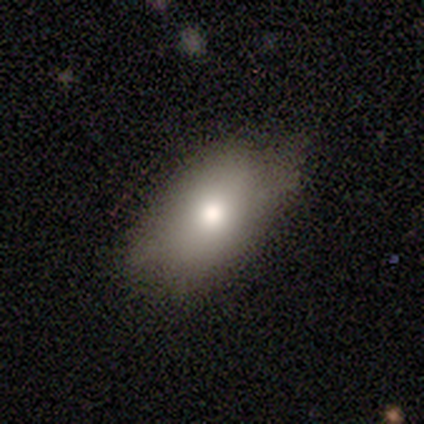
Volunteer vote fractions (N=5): This is likely a smooth galaxy (60%). How rounded: likely in between (67%). Merging: clearly none (100%).